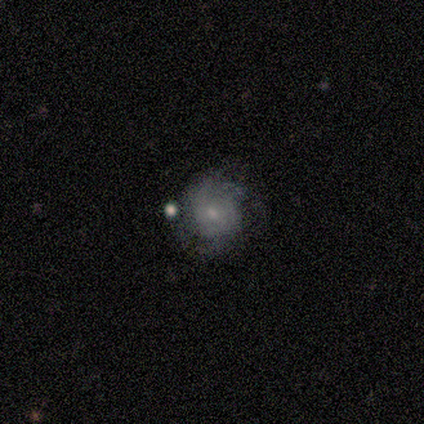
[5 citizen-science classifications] featured or disk 60%, smooth 40%, star or artifact 0%. Down the decision tree: edge-on disk — no (100%); bar — weak (67%); spiral arms — no (67%); bulge size — small (100%); merging — none (60%).